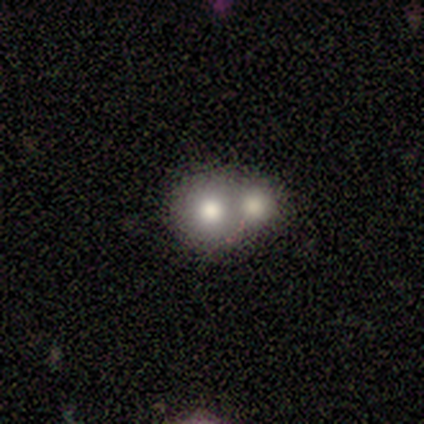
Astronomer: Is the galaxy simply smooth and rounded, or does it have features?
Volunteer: smooth — 71%.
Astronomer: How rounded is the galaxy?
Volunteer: round — 100%.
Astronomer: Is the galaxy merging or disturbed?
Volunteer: merger — 71%.